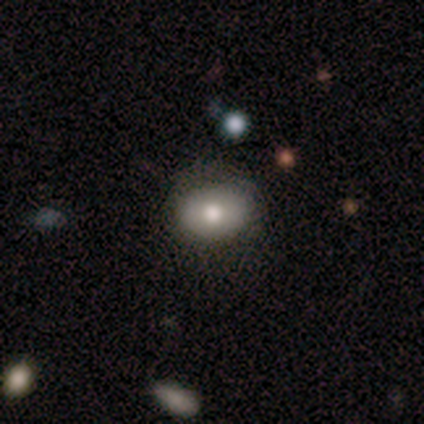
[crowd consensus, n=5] Volunteers were most divided on "how rounded" (2-way tie): round: 50%, in between: 50%, cigar-shaped: 0%. More confident: merging — none (100%); smooth or featured — smooth (80%).